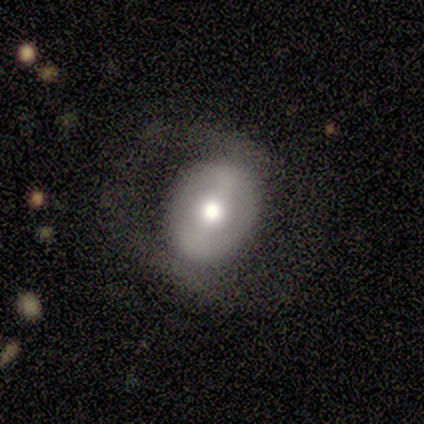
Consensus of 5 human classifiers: Volunteers were most divided on "bar" (3-way tie): strong: 33%, weak: 33%, no: 33%. More confident: edge-on disk — no (100%); spiral arms — no (67%); bulge size — moderate (67%); smooth or featured — featured or disk (60%); merging — minor disturbance (60%).